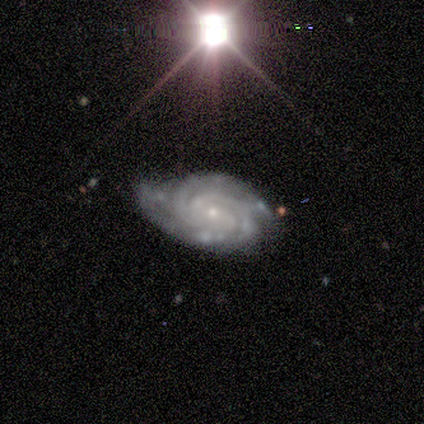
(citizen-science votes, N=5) Smooth or featured? featured or disk (80%)
Edge-on disk? no (100%)
Bar? weak (50%)
Spiral arms? yes (100%)
Spiral winding? tight (75%)
Spiral arm count? 3 (75%)
Bulge size? small (75%)
Merging? minor disturbance (60%)